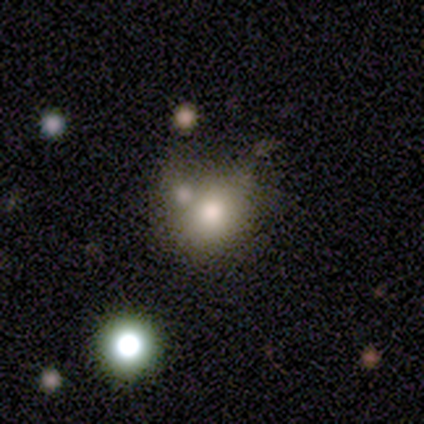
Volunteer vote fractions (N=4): Overall: smooth (50%; featured or disk 25%). How rounded: round (50%, tied with in between). Merging: none (33%, tied with major disturbance and merger).